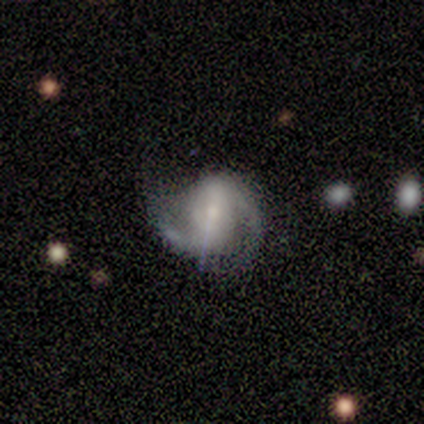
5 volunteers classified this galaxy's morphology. A featured or disk galaxy (100%) with a strong bar (40%, tied with weak), 2 (100%) medium (60%) spiral arms (100%) and a small central bulge (80%).

Vote fractions:
- Smooth or featured? featured or disk: 100% / smooth: 0% / star or artifact: 0%
- Edge-on disk? no: 100% / yes: 0%
- Bar? strong: 40% (tied) / weak: 40% (tied) / no: 20%
- Spiral arms? yes: 100% / no: 0%
- Spiral winding? medium: 60% / tight: 40% / loose: 0%
- Spiral arm count? 2: 100% / 1: 0% / 3: 0% / 4: 0% / more than 4: 0% / can't tell: 0%
- Bulge size? small: 80% / large: 20% / dominant: 0% / moderate: 0% / none: 0%
- Merging? none: 40% (tied) / minor disturbance: 40% (tied) / major disturbance: 20% / merger: 0%